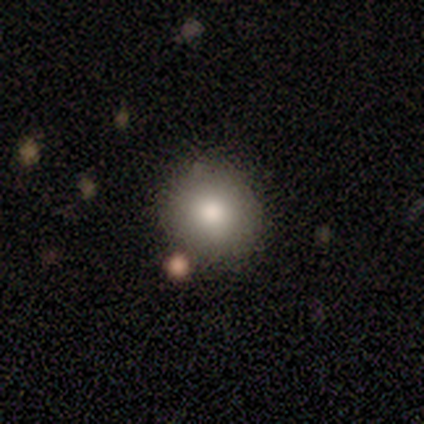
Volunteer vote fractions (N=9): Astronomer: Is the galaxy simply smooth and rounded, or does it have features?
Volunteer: smooth — 78%.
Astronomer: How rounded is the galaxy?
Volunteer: round — 100%.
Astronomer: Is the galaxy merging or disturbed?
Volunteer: none — 100%.